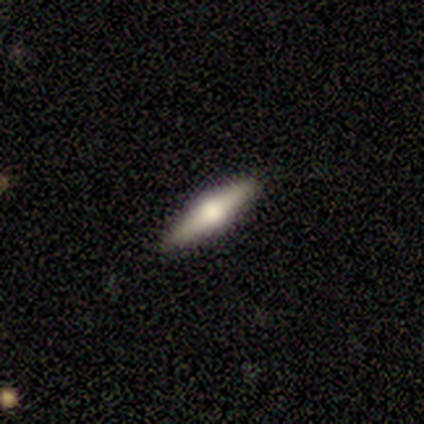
Smooth or featured?
  - featured or disk: 50% *
  - smooth: 45%
  - star or artifact: 5%
Edge-on disk?
  - yes: 95% *
  - no: 5%
Edge-on bulge?
  - rounded: 100% *
  - boxy: 0%
  - none: 0%
Merging?
  - none: 95% *
  - minor disturbance: 5%
  - major disturbance: 0%
  - merger: 0%